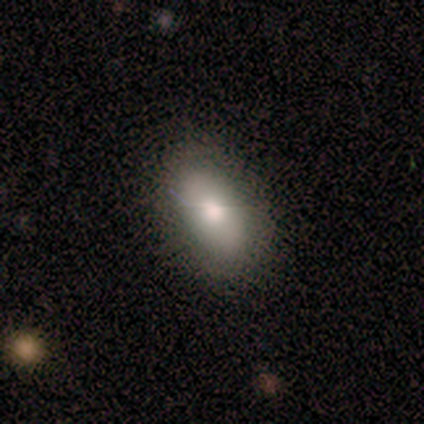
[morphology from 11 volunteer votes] smooth 82%, featured or disk 18%, star or artifact 0%. Down the decision tree: how rounded — in between (89%); merging — none (100%).